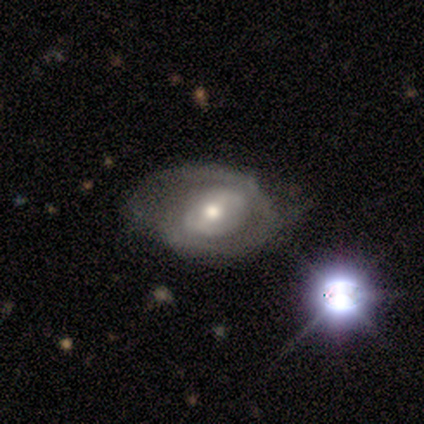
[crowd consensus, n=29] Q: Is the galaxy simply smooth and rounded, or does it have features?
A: featured or disk — 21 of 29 (72%).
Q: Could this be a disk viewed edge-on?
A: no — 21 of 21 (100%).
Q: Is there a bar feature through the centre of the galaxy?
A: weak — 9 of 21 (43%).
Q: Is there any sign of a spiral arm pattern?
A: yes — 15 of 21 (71%).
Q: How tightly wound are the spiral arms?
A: tight — 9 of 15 (60%).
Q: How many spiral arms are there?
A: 2 — 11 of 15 (73%).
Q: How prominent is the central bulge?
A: moderate — 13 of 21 (62%).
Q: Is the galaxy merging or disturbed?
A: none — 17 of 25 (68%).